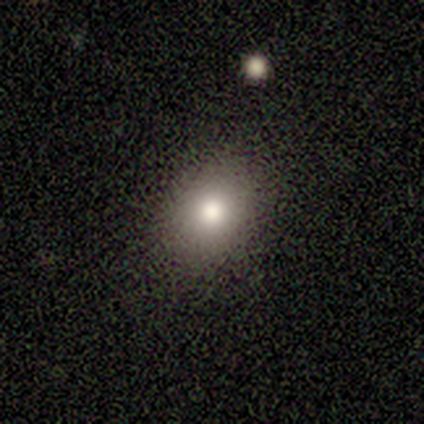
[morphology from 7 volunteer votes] Overall: smooth (100%). How rounded: in between (57%; round 43%). Merging: none (100%).